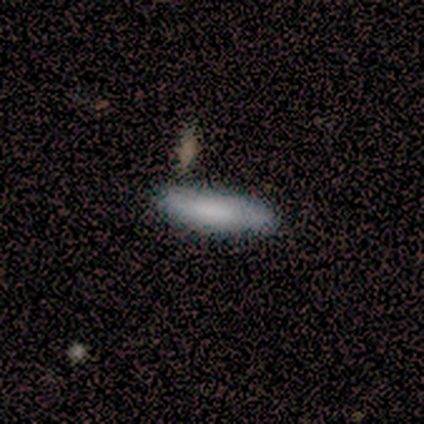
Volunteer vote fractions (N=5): smooth-or-featured: smooth: 100% | featured or disk: 0% | star or artifact: 0%
  how-rounded: cigar-shaped: 60% | in between: 40% | round: 0%
  merging: none: 100% | minor disturbance: 0% | major disturbance: 0% | merger: 0%